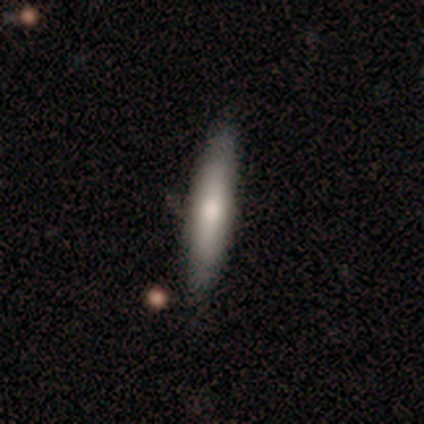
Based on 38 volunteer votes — A smooth galaxy with no disk features (61%) that is cigar-shaped (100%). Merging: none (49%).